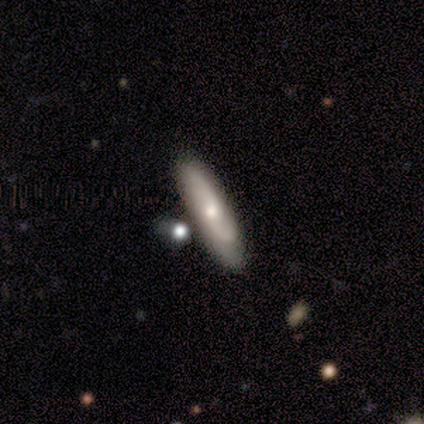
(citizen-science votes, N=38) smooth 55%, featured or disk 39%, star or artifact 5%. Down the decision tree: how rounded — cigar-shaped (86%); merging — none (72%).